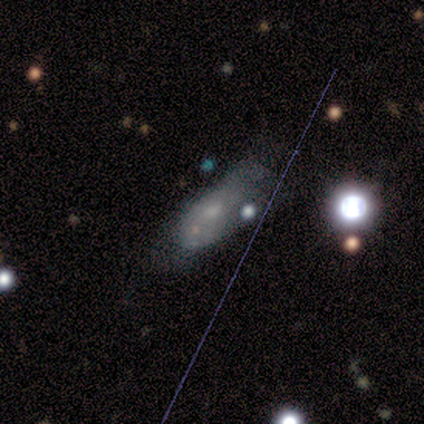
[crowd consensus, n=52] Smooth or featured: smooth — 40% (featured or disk — 33%)
How rounded: in between — 76% (cigar-shaped — 14%)
Merging: minor disturbance — 47% (none — 24%)